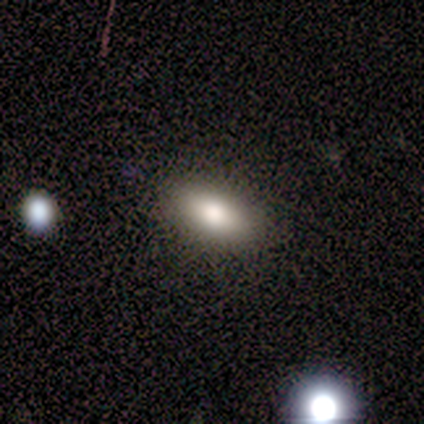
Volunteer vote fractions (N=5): smooth_or_featured: smooth (p=0.80) [alt: featured or disk p=0.20]
how_rounded: in between (p=0.75) [alt: cigar-shaped p=0.25]
merging: none (p=0.60) [alt: minor disturbance p=0.40]